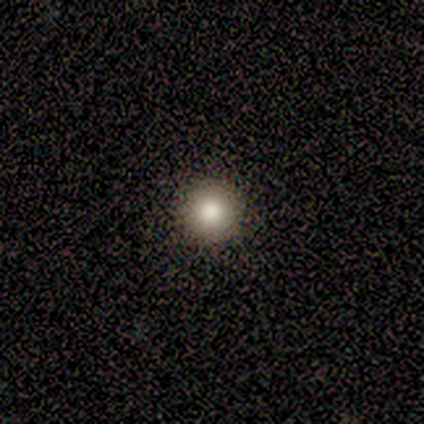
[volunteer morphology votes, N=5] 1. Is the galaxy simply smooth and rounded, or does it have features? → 100% smooth, 0% featured or disk, 0% star or artifact.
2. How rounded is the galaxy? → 100% round, 0% in between, 0% cigar-shaped.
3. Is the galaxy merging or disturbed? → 100% none, 0% minor disturbance, 0% major disturbance, 0% merger.